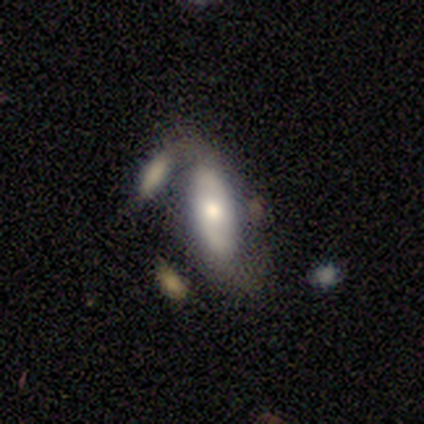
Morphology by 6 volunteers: Smooth or featured? 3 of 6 (50%) said smooth. How rounded? 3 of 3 (100%) said in between. Merging? 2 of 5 (40%, tied with major disturbance) said none.